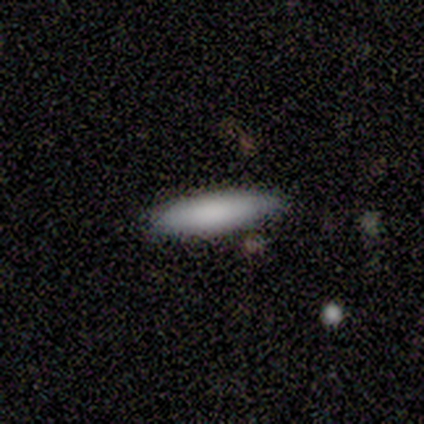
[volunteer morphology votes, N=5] Smooth or featured: smooth — 80% (star or artifact — 20%)
How rounded: in between — 75% (cigar-shaped — 25%)
Merging: none — 100%